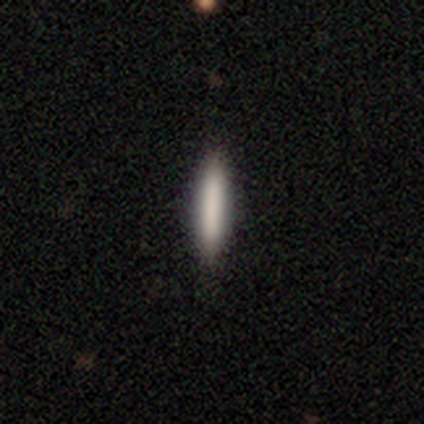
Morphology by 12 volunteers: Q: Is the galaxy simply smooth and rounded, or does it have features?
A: smooth — 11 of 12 (92%).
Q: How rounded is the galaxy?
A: cigar-shaped — 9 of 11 (82%).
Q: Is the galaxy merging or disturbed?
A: none — 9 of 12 (75%).